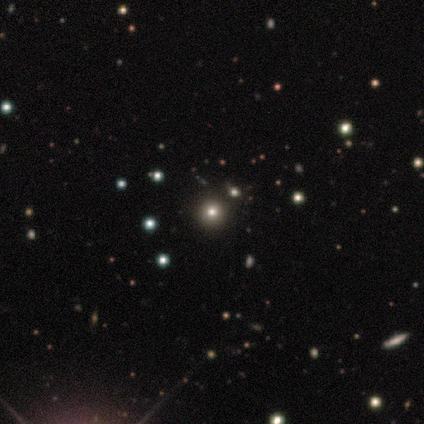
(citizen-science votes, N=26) smooth_or_featured: smooth (p=0.73) [alt: star or artifact p=0.23]
how_rounded: round (p=1.00)
merging: none (p=1.00)